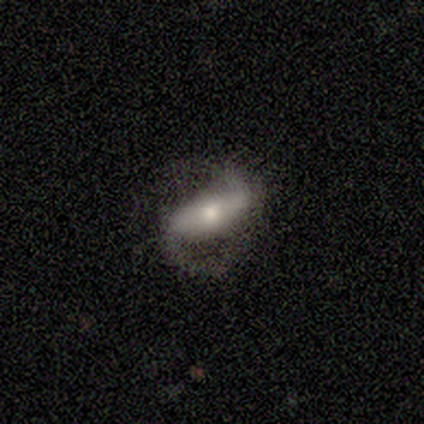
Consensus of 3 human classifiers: A featured or disk galaxy (100%) with a strong bar (100%), 2 (100%) medium (50%, tied with loose) spiral arms (100%) and a small central bulge (100%). Merging: none (100%).